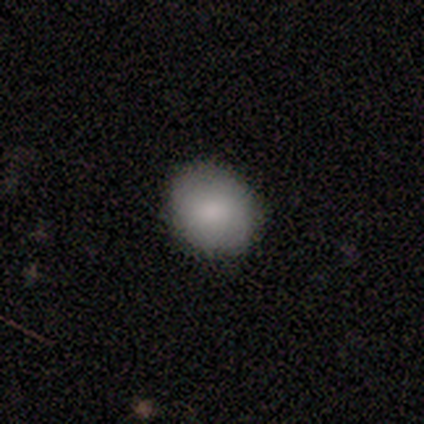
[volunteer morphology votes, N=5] Smooth or featured? smooth (80%)
How rounded? round (75%)
Merging? none (60%)